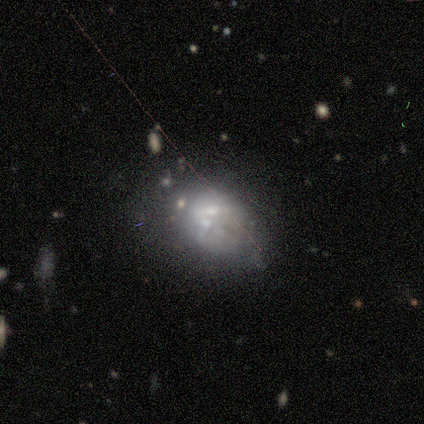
featured or disk 56%, smooth 31%, star or artifact 13%. Down the decision tree: edge-on disk — no (97%); bar — no (88%); spiral arms — no (91%); bulge size — none (38%); merging — minor disturbance (35%).